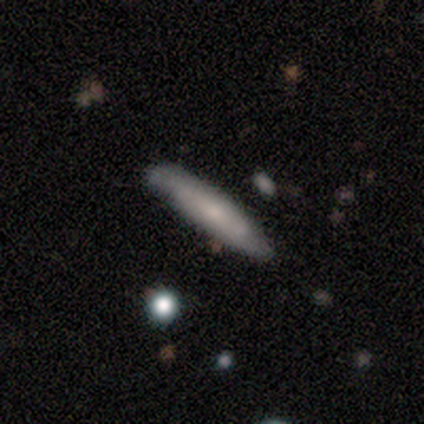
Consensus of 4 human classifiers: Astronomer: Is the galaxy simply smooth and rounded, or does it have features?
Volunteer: smooth — 100%.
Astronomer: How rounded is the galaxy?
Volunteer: cigar-shaped — 100%.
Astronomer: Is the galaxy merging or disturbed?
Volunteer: none — 75%.